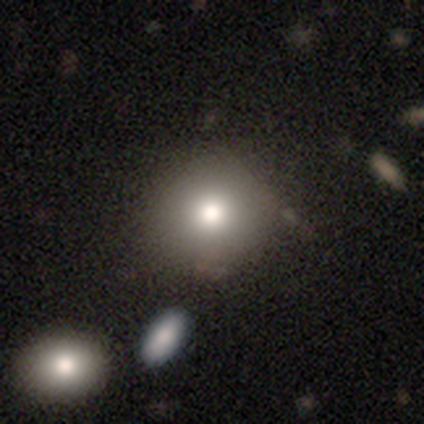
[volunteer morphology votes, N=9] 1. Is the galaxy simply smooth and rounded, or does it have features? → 78% smooth, 22% featured or disk, 0% star or artifact.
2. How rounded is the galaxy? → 100% round, 0% in between, 0% cigar-shaped.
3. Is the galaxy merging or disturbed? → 100% none, 0% minor disturbance, 0% major disturbance, 0% merger.